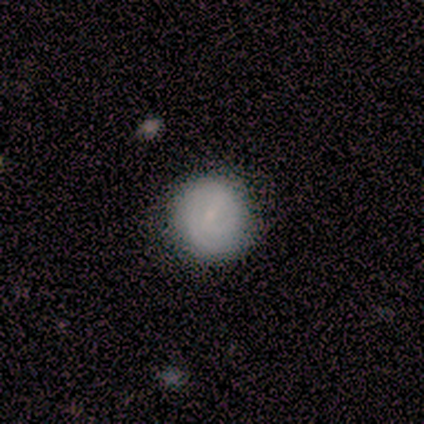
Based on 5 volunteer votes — Q: Smooth or featured?
A: smooth (60%); runner-up: featured or disk (40%)
Q: How rounded?
A: round (100%)
Q: Merging?
A: none (80%); runner-up: minor disturbance (20%)